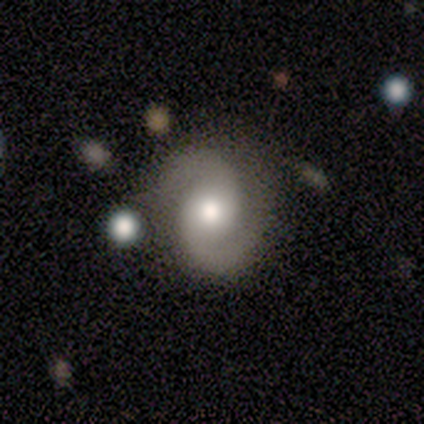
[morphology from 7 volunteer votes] A featured or disk galaxy (100%) with a weak bar (57%), 2 (100%) medium (67%) spiral arms (86%) and a moderate central bulge (86%).

Vote fractions:
- Smooth or featured? featured or disk: 100% / smooth: 0% / star or artifact: 0%
- Edge-on disk? no: 100% / yes: 0%
- Bar? weak: 57% / no: 43% / strong: 0%
- Spiral arms? yes: 86% / no: 14%
- Spiral winding? medium: 67% / loose: 33% / tight: 0%
- Spiral arm count? 2: 100% / 1: 0% / 3: 0% / 4: 0% / more than 4: 0% / can't tell: 0%
- Bulge size? moderate: 86% / dominant: 14% / large: 0% / small: 0% / none: 0%
- Merging? none: 86% / minor disturbance: 14% / major disturbance: 0% / merger: 0%